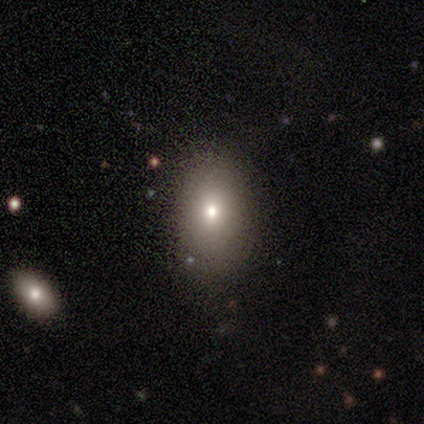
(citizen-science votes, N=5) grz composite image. It shows a smooth galaxy with no disk features (80%) that is in between round and cigar-shaped (75%). Merging: none (100%).